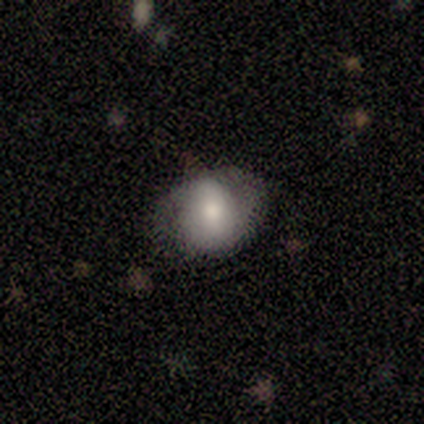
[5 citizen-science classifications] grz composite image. It shows a smooth galaxy with no disk features (60%) that is in between round and cigar-shaped (100%). Merging: none (50%).